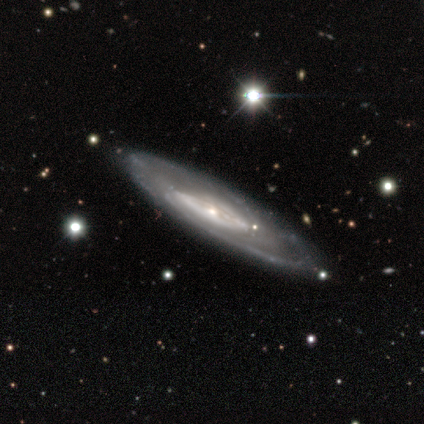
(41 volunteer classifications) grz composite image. It shows a featured or disk galaxy (88%) with no bar (73%), tight (52%) spiral arms (88%) and a small central bulge (65%). Merging: none (83%).